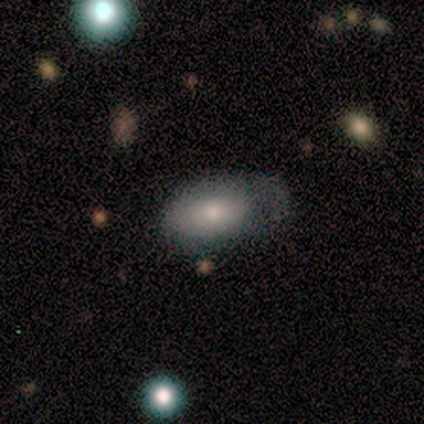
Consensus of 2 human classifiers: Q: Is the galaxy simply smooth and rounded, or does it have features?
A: smooth — 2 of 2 (100%).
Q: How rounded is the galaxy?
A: in between — 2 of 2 (100%).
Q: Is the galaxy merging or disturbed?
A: none — 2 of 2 (100%).